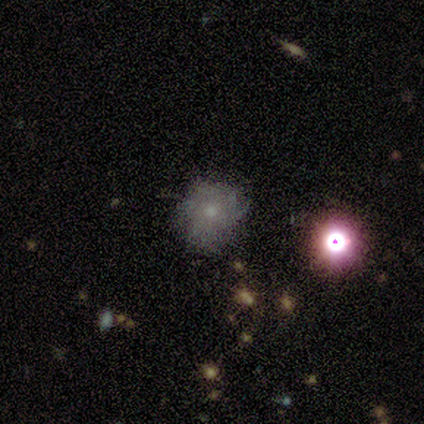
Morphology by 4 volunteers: Smooth or featured? smooth (100%)
How rounded? round (50%, tied with in between)
Merging? minor disturbance (75%)